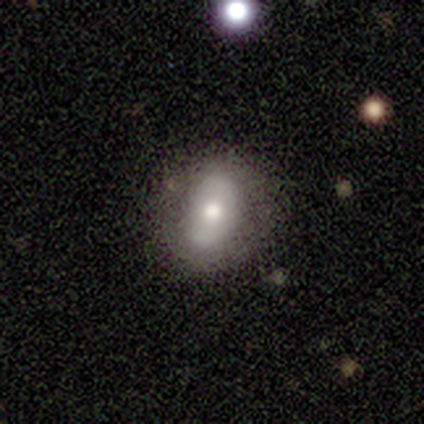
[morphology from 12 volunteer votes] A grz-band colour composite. It shows a smooth galaxy with no disk features (67%) that is in between round and cigar-shaped (88%). Merging: none (70%).